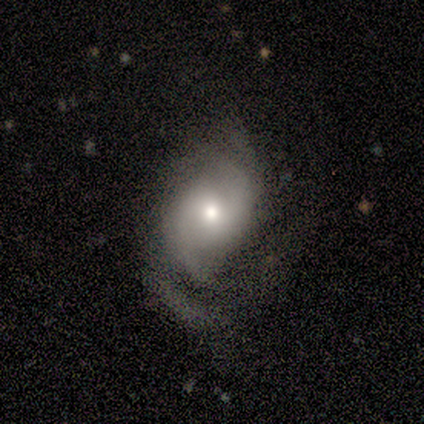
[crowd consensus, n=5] Volunteers were most divided on "spiral winding" (2-way tie): medium: 50%, loose: 50%, tight: 0%; "spiral arm count" (2-way tie): 2: 50%, can't tell: 50%, 1: 0%, 3: 0%, 4: 0%, more than 4: 0%. More confident: edge-on disk — no (100%); spiral arms — yes (100%); bulge size — moderate (100%); smooth or featured — featured or disk (80%); merging — none (80%); bar — no (75%).